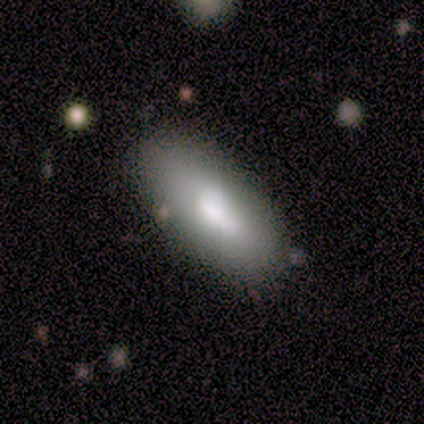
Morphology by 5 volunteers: Overall: smooth (80%). How rounded: in between (100%). Merging: none (80%).